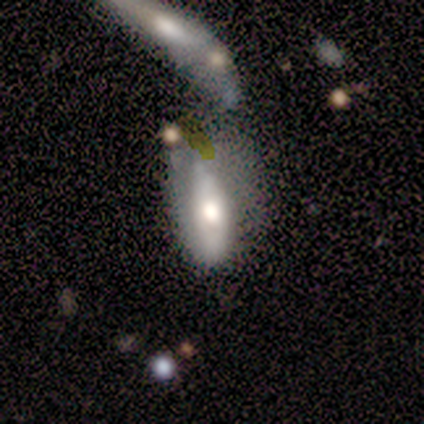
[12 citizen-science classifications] This is clearly a smooth galaxy (83%). How rounded: likely in between (60%). Merging: likely merger (64%).